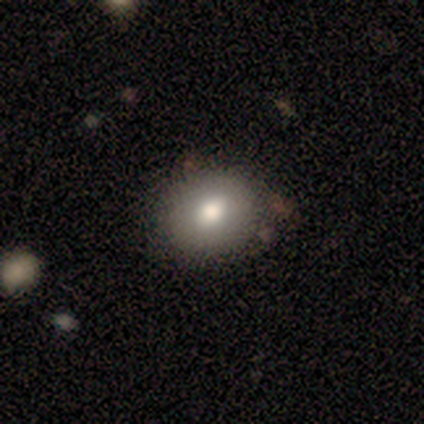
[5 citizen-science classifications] Morphology: type=smooth (80%); roundness=round (75%); merging=none (80%).